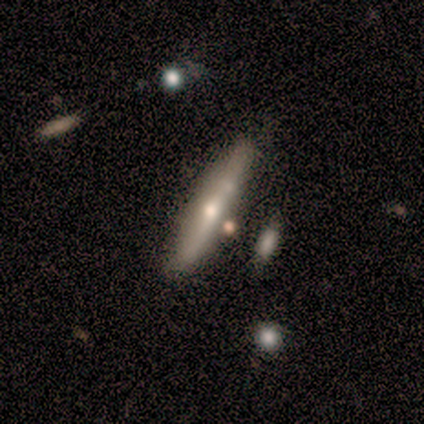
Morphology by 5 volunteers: Q: Smooth or featured?
A: featured or disk (60%); runner-up: smooth (40%)
Q: Edge-on disk?
A: yes (100%)
Q: Edge-on bulge?
A: rounded (100%)
Q: Merging?
A: none (60%); runner-up: merger (40%)